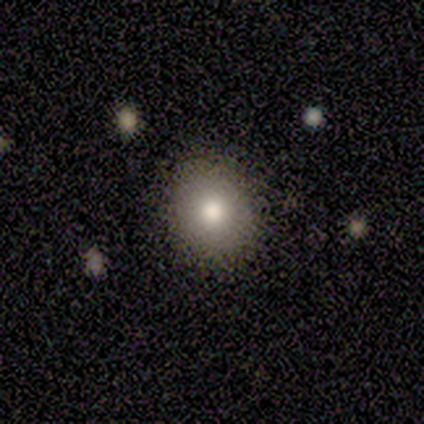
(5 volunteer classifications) smooth_or_featured: smooth (p=0.60) [alt: featured or disk p=0.40]
how_rounded: in between (p=0.67) [alt: round p=0.33]
merging: none (p=0.80) [alt: minor disturbance p=0.20]